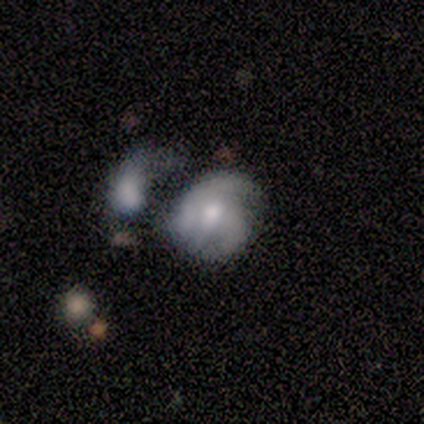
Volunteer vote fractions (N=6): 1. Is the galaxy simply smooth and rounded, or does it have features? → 67% featured or disk, 17% smooth, 17% star or artifact.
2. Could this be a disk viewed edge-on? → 100% no, 0% yes.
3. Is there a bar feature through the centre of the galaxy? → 75% no, 25% weak, 0% strong.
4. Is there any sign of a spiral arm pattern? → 75% yes, 25% no.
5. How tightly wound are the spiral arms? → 67% medium, 33% tight, 0% loose.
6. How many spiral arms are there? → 67% 3, 33% can't tell, 0% 1, 0% 2, 0% 4, 0% more than 4.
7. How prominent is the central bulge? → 75% moderate, 25% small, 0% dominant, 0% large, 0% none.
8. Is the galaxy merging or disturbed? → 60% major disturbance, 40% merger, 0% none, 0% minor disturbance.